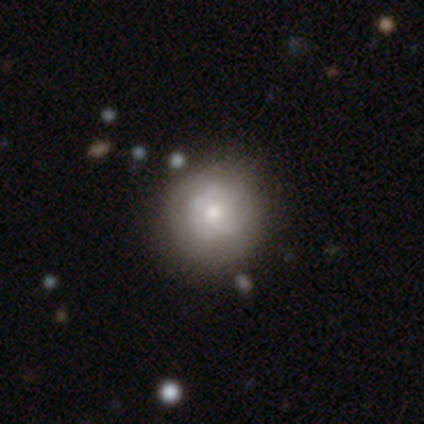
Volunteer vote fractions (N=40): Morphology: type=featured or disk (60%); edge-on=no (96%); bar=no (91%); spiral arms=yes (78%); winding=tight (61%); arm count=can't tell (50%); bulge=moderate (74%); merging=none (68%).